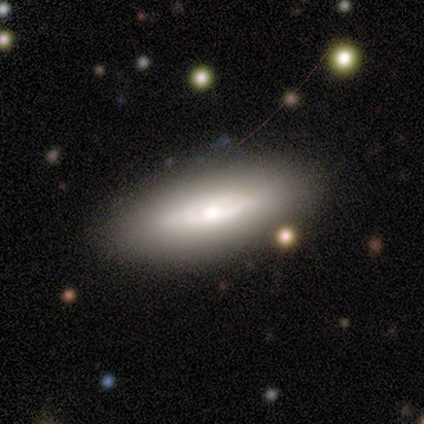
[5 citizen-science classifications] A smooth galaxy with no disk features (60%) that is in between round and cigar-shaped (67%). Merging: none (40%, tied with merger).